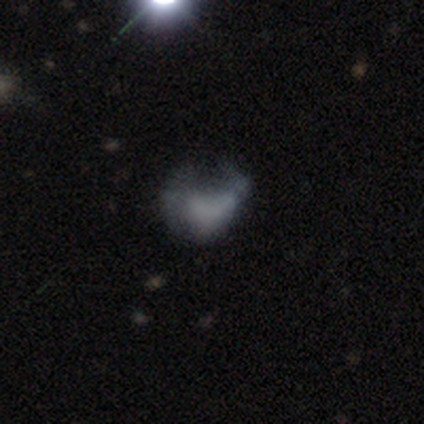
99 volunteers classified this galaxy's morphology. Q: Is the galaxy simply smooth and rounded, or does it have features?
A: featured or disk — 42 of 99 (42%).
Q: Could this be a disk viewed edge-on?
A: no — 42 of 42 (100%).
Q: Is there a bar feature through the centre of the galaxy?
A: no — 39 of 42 (93%).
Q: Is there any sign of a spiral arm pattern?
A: no — 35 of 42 (83%).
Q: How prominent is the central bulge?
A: none — 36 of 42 (86%).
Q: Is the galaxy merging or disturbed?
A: none — 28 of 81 (35%).